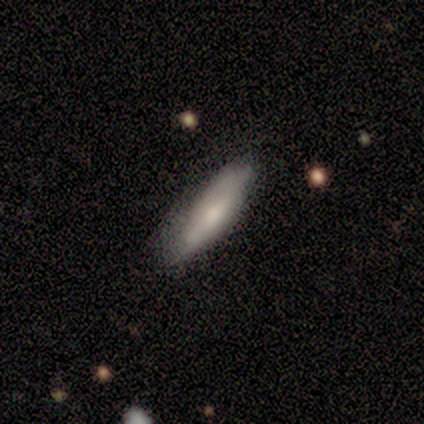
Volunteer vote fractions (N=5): Morphology: type=smooth (60%); roundness=in between (67%); merging=none (60%).